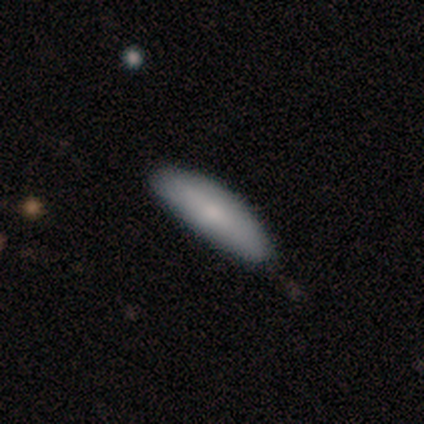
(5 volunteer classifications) Q: Smooth or featured?
A: smooth (60%); runner-up: featured or disk (20%)
Q: How rounded?
A: cigar-shaped (67%); runner-up: in between (33%)
Q: Merging?
A: none (75%); runner-up: minor disturbance (25%)